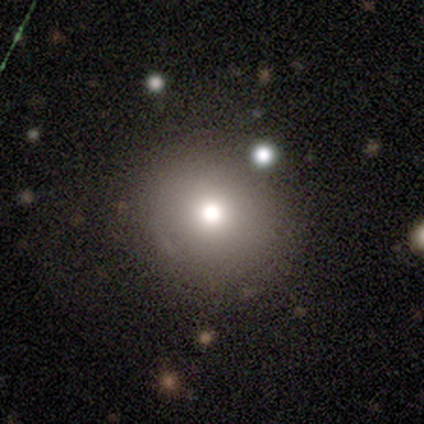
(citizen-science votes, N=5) Smooth or featured?
  - smooth: 80% *
  - star or artifact: 20%
  - featured or disk: 0%
How rounded?
  - round: 100% *
  - in between: 0%
  - cigar-shaped: 0%
Merging?
  - none: 100% *
  - minor disturbance: 0%
  - major disturbance: 0%
  - merger: 0%